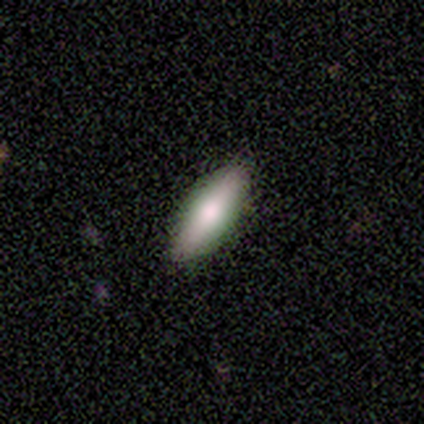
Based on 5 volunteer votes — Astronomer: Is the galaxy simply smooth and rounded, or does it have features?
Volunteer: smooth — 80%.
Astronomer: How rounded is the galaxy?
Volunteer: in between — 75%.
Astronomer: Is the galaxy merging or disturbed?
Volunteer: none — 80%.